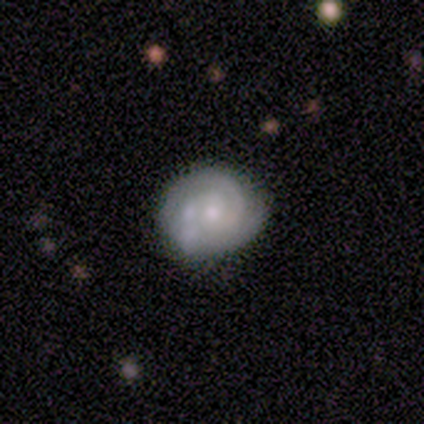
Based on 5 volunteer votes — Smooth or featured? featured or disk (80%)
Edge-on disk? no (100%)
Bar? no (75%)
Spiral arms? yes (100%)
Spiral winding? tight (75%)
Spiral arm count? 2 (25%, tied with 3, 4 and can't tell)
Bulge size? moderate (50%, tied with small)
Merging? none (60%)